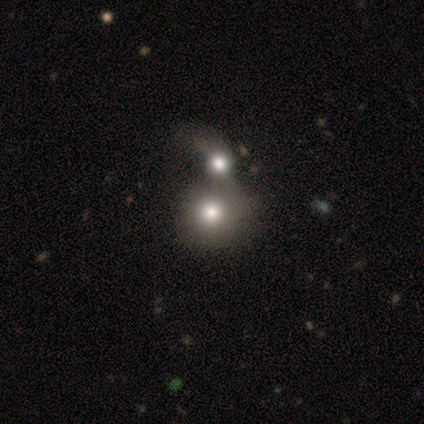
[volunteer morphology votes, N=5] Smooth or featured? 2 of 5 (40%, tied with featured or disk) said smooth. How rounded? 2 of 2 (100%) said round. Merging? 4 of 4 (100%) said merger.